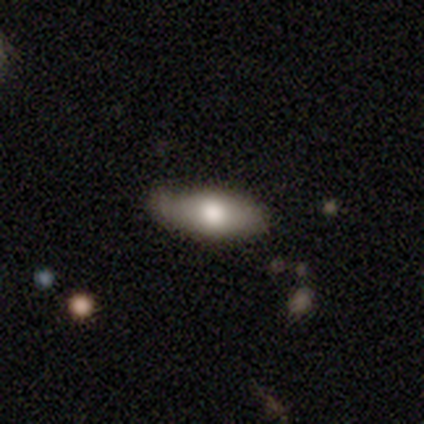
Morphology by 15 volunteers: Smooth or featured: smooth — 60% (featured or disk — 40%)
How rounded: in between — 78% (cigar-shaped — 22%)
Merging: none — 67% (minor disturbance — 27%)